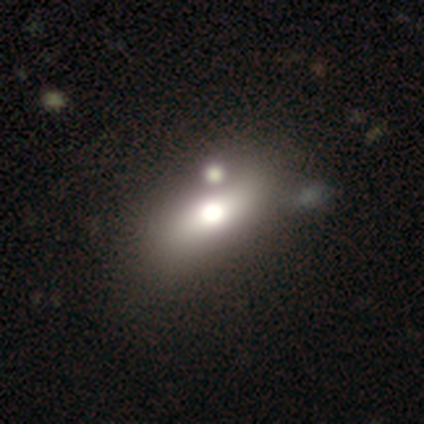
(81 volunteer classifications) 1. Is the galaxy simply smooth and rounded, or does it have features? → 63% smooth, 22% featured or disk, 15% star or artifact.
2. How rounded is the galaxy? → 76% in between, 14% cigar-shaped, 10% round.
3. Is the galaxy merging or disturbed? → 30% merger, 25% none, 9% minor disturbance, 1% major disturbance.